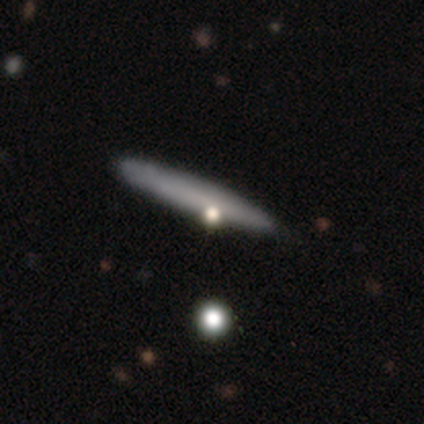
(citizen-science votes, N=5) smooth_or_featured: featured or disk (p=0.60) [alt: smooth p=0.40]
disk_edge_on: yes (p=1.00)
edge_on_bulge: none (p=1.00)
merging: none (p=0.40) [tied with: minor disturbance p=0.40]